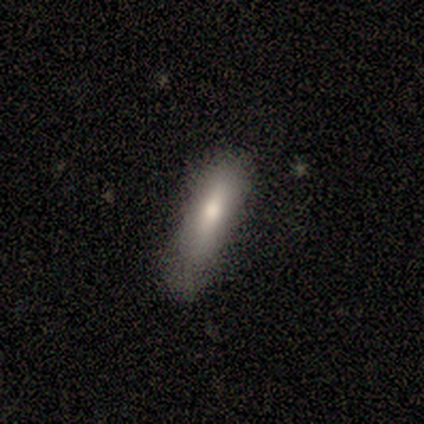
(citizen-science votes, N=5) Overall: smooth (100%). How rounded: in between (60%; cigar-shaped 40%). Merging: none (80%).